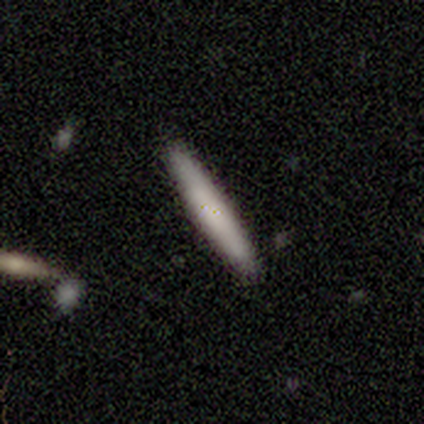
A smooth galaxy with no disk features (70%) that is cigar-shaped (100%). Merging: none (82%).